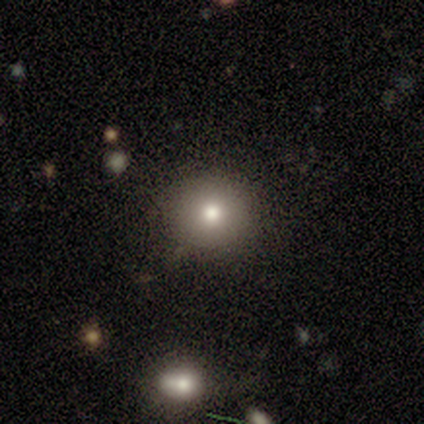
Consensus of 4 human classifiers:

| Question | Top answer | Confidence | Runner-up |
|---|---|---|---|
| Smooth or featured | smooth | 50% | featured or disk (25%) |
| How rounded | round | 100% | — |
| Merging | none | 100% | — |